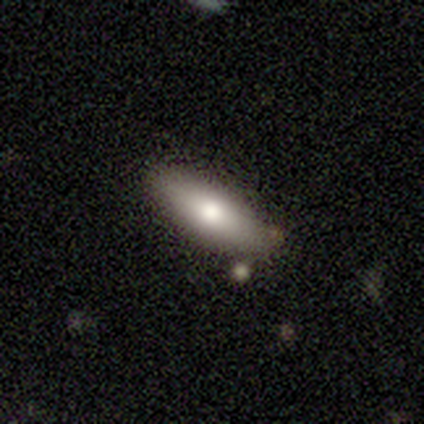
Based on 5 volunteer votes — smooth-or-featured: smooth: 60% | featured or disk: 20% | star or artifact: 20%
  how-rounded: in between: 67% | cigar-shaped: 33% | round: 0%
  merging: none: 75% | merger: 25% | minor disturbance: 0% | major disturbance: 0%